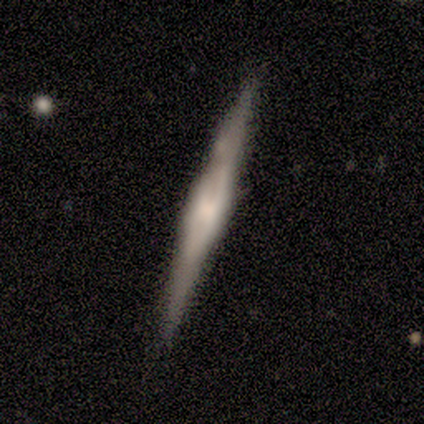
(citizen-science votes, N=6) Overall: smooth (50%, tied with featured or disk). How rounded: cigar-shaped (100%). Merging: none (83%).